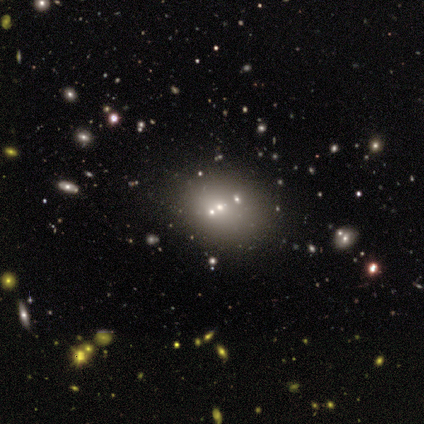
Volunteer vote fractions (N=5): A star or artifact, not a galaxy (60%).

Vote fractions:
- Smooth or featured? star or artifact: 60% / smooth: 20% / featured or disk: 20%